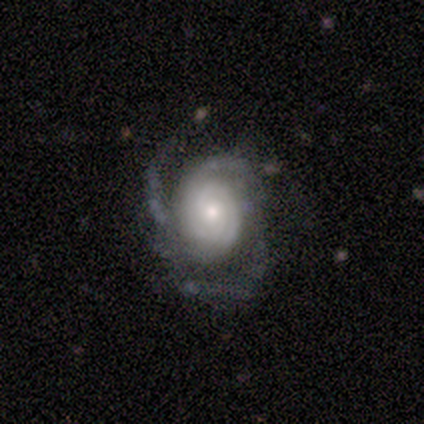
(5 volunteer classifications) This is clearly a featured or disk galaxy (100%). It is clearly not viewed edge-on (100%). Bar: clearly no (100%). Spiral arm pattern: clearly yes (100%). Spiral arm count: likely 3 (60%). Spiral winding: likely tight (60%). Central bulge: clearly small (80%). Merging: likely none (60%).